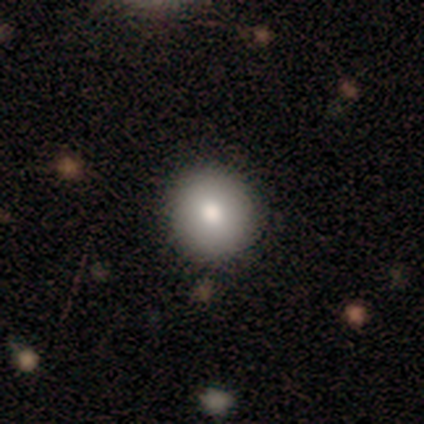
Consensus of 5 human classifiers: Smooth or featured?
  - smooth: 80% *
  - star or artifact: 20%
  - featured or disk: 0%
How rounded?
  - round: 100% *
  - in between: 0%
  - cigar-shaped: 0%
Merging?
  - none: 100% *
  - minor disturbance: 0%
  - major disturbance: 0%
  - merger: 0%